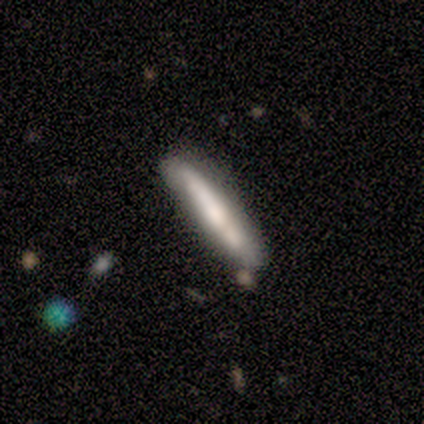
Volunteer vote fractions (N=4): Smooth or featured?
  - smooth: 100% *
  - featured or disk: 0%
  - star or artifact: 0%
How rounded?
  - cigar-shaped: 100% *
  - round: 0%
  - in between: 0%
Merging?
  - none: 50% *
  - minor disturbance: 25%
  - merger: 25%
  - major disturbance: 0%